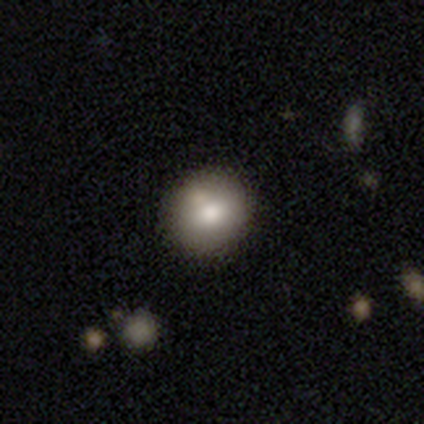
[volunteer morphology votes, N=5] type=smooth (60%); roundness=round (100%); merging=none (100%).